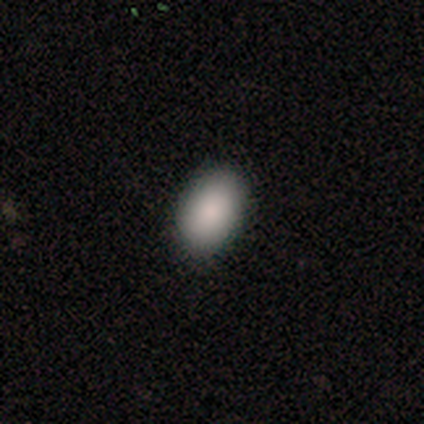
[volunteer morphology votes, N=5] smooth 80%, star or artifact 20%, featured or disk 0%. Down the decision tree: how rounded — in between (100%); merging — none (100%).